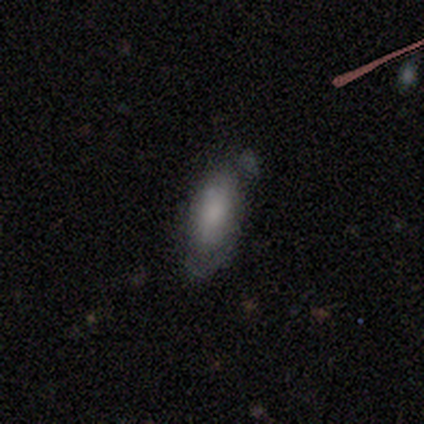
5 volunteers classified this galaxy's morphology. This appears to be a smooth galaxy with no disk features (80%) that is in between round and cigar-shaped (100%). Merging: none (60%).